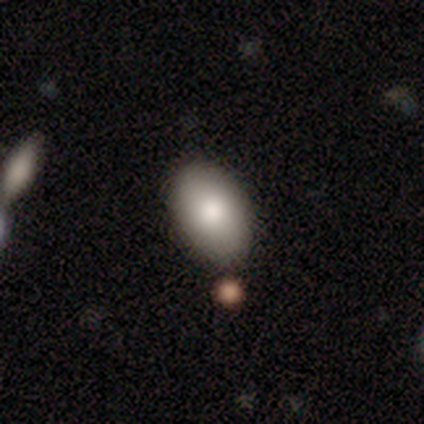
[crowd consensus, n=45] smooth-or-featured: smooth: 80% | star or artifact: 11% | featured or disk: 9%
  how-rounded: in between: 92% | round: 8% | cigar-shaped: 0%
  merging: none: 82% | minor disturbance: 15% | major disturbance: 2% | merger: 0%